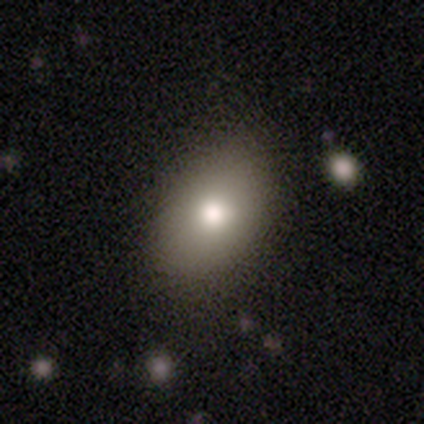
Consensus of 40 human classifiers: Volunteers were most divided on "smooth or featured": smooth: 70%, featured or disk: 20%, star or artifact: 10%. More confident: merging — none (86%); how rounded — in between (86%).